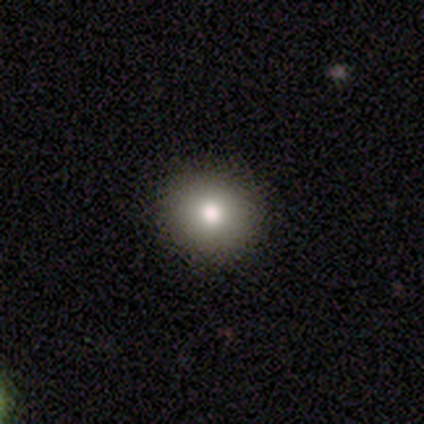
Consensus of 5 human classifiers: Smooth or featured: smooth — 60% (featured or disk — 40%)
How rounded: round — 100%
Merging: none — 100%